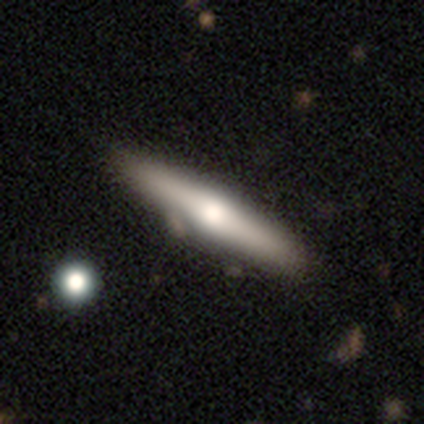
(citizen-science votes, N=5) smooth-or-featured: featured or disk: 60% | smooth: 40% | star or artifact: 0%
  disk-edge-on: yes: 100% | no: 0%
    edge-on-bulge: rounded: 100% | boxy: 0% | none: 0%
  merging: none: 80% | minor disturbance: 20% | major disturbance: 0% | merger: 0%